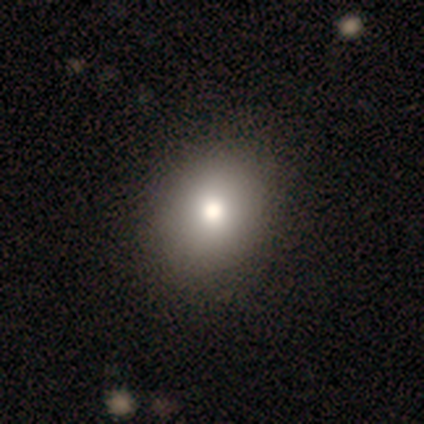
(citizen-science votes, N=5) Smooth or featured: smooth — 80% (featured or disk — 20%)
How rounded: round — 50% (tied with in between — 50%)
Merging: none — 100%